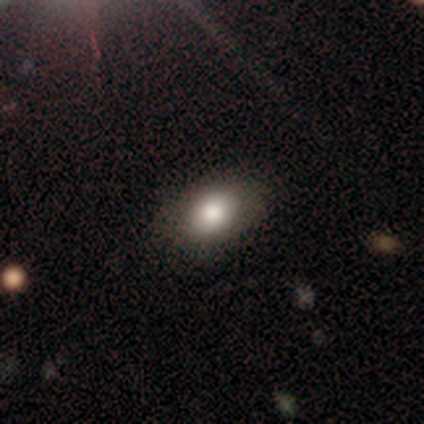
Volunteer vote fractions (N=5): A smooth galaxy with no disk features (100%) that is in between round and cigar-shaped (100%). Merging: none (100%).